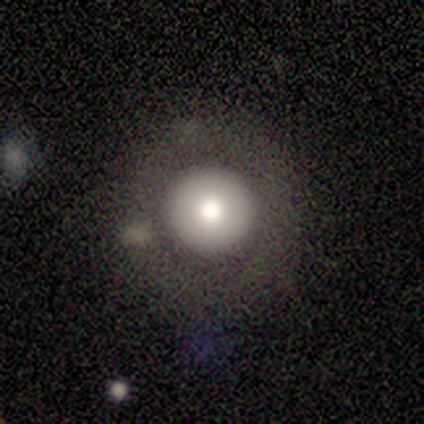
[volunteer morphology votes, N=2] Smooth or featured: featured or disk — 100%
Edge-on disk: no — 100%
Bar: no — 100%
Spiral arms: no — 100%
Bulge size: moderate — 50% (tied with small — 50%)
Merging: none — 100%